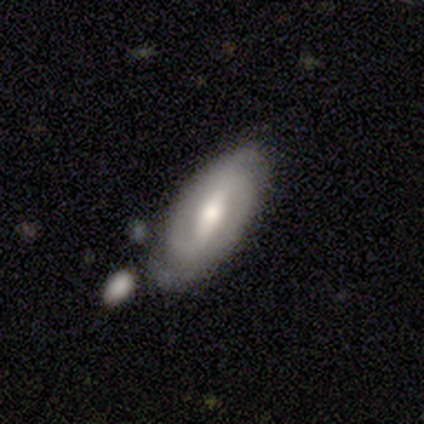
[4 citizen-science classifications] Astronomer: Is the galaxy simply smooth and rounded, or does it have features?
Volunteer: featured or disk — 100%.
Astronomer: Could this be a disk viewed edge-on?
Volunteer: no — 100%.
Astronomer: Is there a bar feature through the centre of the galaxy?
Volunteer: strong — 100%.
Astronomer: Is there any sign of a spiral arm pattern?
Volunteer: yes — 75%.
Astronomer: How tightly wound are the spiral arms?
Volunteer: tight — 33%, tied with medium and loose at 33%.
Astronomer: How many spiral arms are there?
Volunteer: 2 — 67%.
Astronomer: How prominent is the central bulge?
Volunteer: moderate — 100%.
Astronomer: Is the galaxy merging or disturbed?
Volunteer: none — 75%.